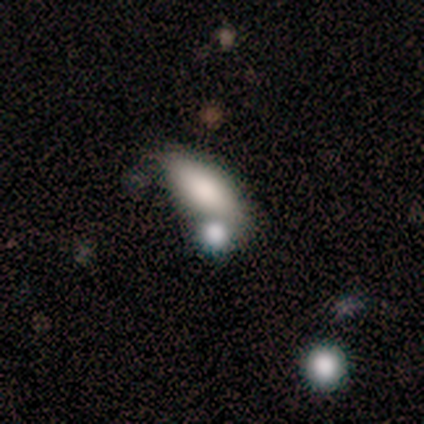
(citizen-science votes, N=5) Smooth or featured: smooth — 80% (featured or disk — 20%)
How rounded: in between — 75% (cigar-shaped — 25%)
Merging: merger — 60% (none — 40%)